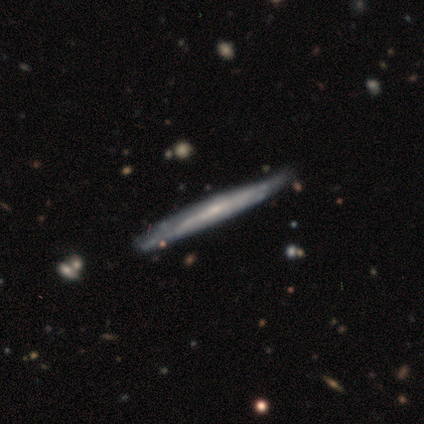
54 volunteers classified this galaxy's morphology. Q: Smooth or featured?
A: featured or disk (80%); runner-up: smooth (17%)
Q: Edge-on disk?
A: yes (91%); runner-up: no (9%)
Q: Edge-on bulge?
A: none (56%); runner-up: rounded (41%)
Q: Merging?
A: none (67%); runner-up: minor disturbance (27%)